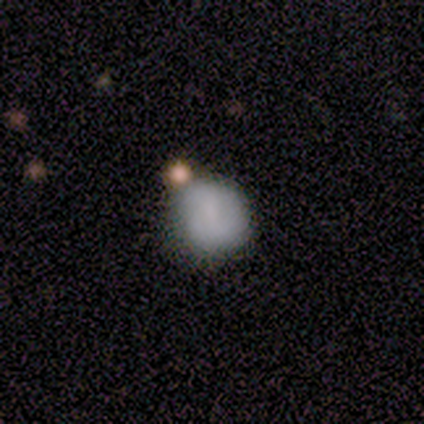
This appears to be a smooth galaxy with no disk features (80%) that is round (100%). Merging: none (40%, tied with minor disturbance).